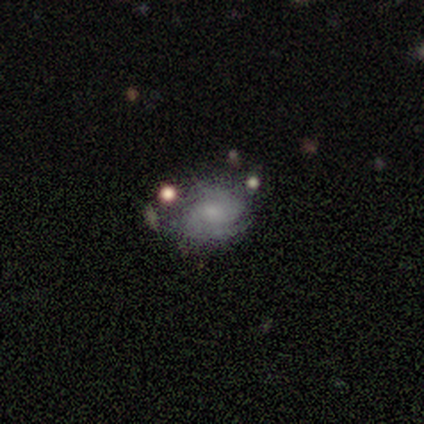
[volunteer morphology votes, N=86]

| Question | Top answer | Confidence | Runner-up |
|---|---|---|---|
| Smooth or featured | featured or disk | 55% | smooth (33%) |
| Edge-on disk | no | 96% | yes (4%) |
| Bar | no | 73% | weak (22%) |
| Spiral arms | yes | 82% | no (18%) |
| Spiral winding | tight | 78% | medium (11%) |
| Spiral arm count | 2 | 51% | can't tell (30%) |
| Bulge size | small | 58% | moderate (22%) |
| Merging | none | 61% | minor disturbance (19%) |